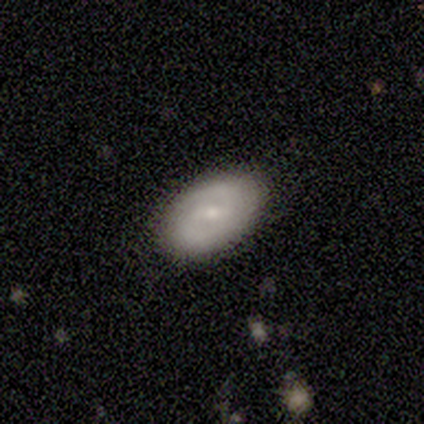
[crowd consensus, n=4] Smooth or featured? 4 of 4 (100%) said featured or disk. Edge-on disk? 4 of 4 (100%) said no. Bar? 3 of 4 (75%) said weak. Spiral arms? 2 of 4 (50%, tied with no) said yes. Spiral winding? 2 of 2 (100%) said tight. Spiral arm count? 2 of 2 (100%) said 2. Bulge size? 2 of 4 (50%, tied with small) said moderate. Merging? 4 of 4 (100%) said none.